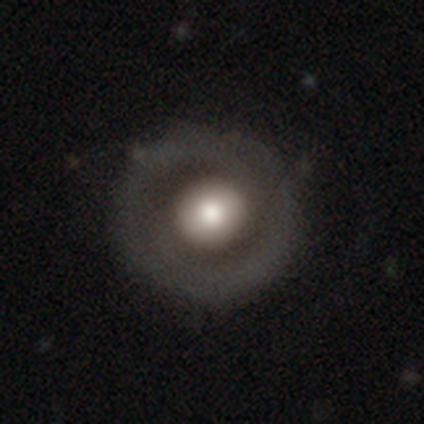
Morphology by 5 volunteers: This is clearly a smooth galaxy (80%). How rounded: likely round (75%). Merging: likely none (60%).